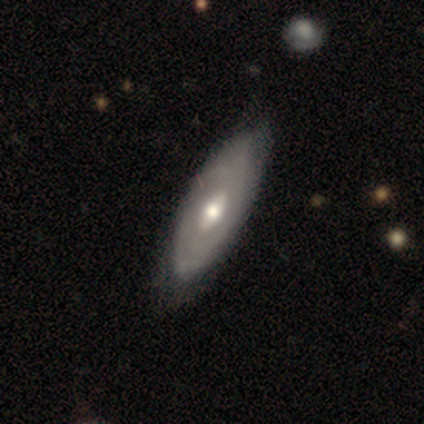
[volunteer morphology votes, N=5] Smooth or featured? featured or disk (100%)
Edge-on disk? no (60%)
Bar? no (67%)
Spiral arms? yes (67%)
Spiral winding? tight (50%, tied with medium)
Spiral arm count? can't tell (100%)
Bulge size? moderate (67%)
Merging? none (100%)